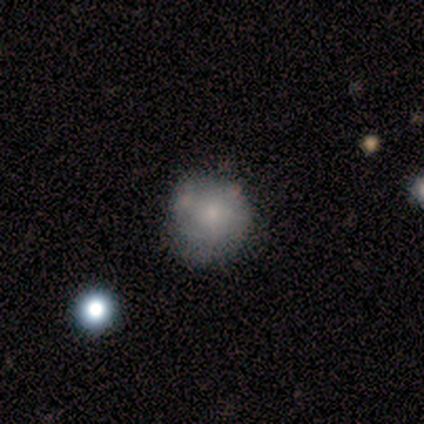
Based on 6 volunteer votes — smooth_or_featured: smooth (p=0.50) [alt: featured or disk p=0.33]
how_rounded: round (p=0.67) [alt: cigar-shaped p=0.33]
merging: none (p=0.80) [alt: major disturbance p=0.20]